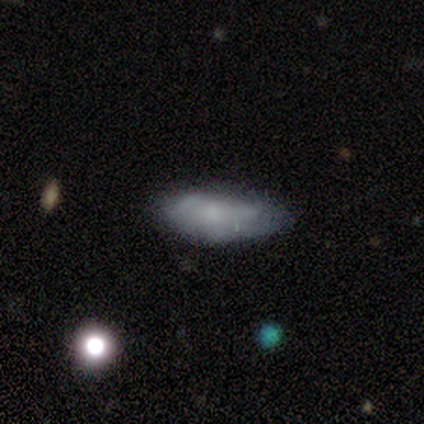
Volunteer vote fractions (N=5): Smooth or featured? smooth (80%)
How rounded? in between (75%)
Merging? none (60%)